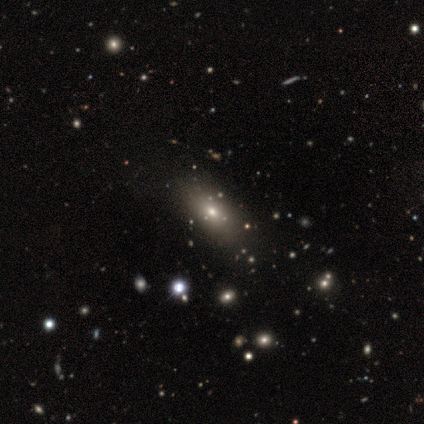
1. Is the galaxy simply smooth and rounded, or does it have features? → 100% smooth, 0% featured or disk, 0% star or artifact.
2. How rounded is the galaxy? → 80% in between, 20% cigar-shaped, 0% round.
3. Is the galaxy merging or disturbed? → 100% none, 0% minor disturbance, 0% major disturbance, 0% merger.